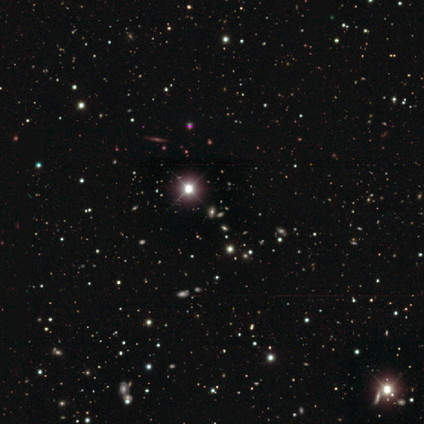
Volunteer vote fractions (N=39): Smooth or featured?
  - star or artifact: 82% *
  - smooth: 10%
  - featured or disk: 8%